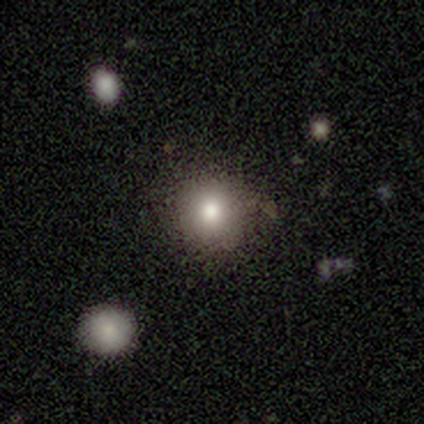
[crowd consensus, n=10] Smooth or featured? smooth (90%)
How rounded? round (100%)
Merging? none (100%)